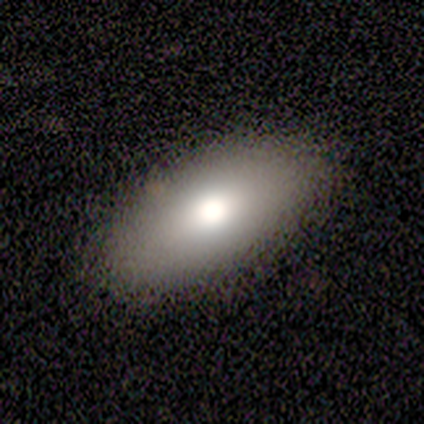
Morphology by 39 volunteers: This is clearly a smooth galaxy (87%). How rounded: clearly in between (97%). Merging: likely none (63%).